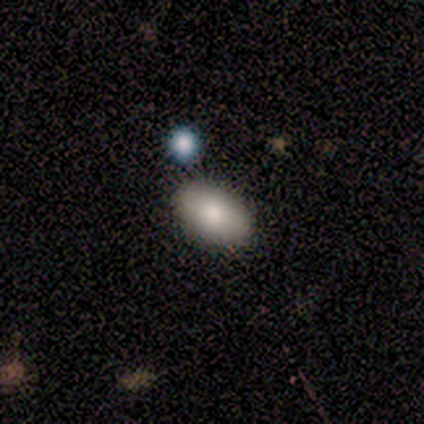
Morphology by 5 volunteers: smooth 80%, featured or disk 20%, star or artifact 0%. Down the decision tree: how rounded — in between (100%); merging — none (60%).